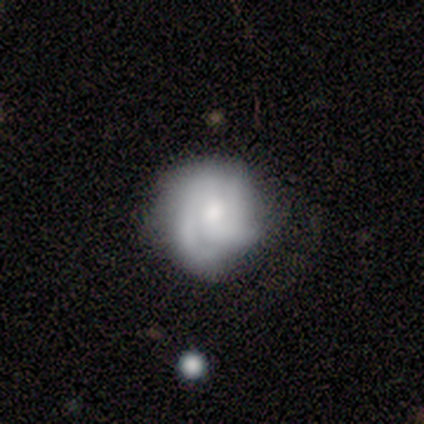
This is likely a featured or disk galaxy (60%). It is clearly not viewed edge-on (100%). Bar: likely no (67%). Spiral arm pattern: clearly yes (100%). Spiral arm count: likely can't tell (67%). Spiral winding: likely medium (67%). Central bulge: marginally moderate (33%, tied with small and none). Merging: clearly none (100%).